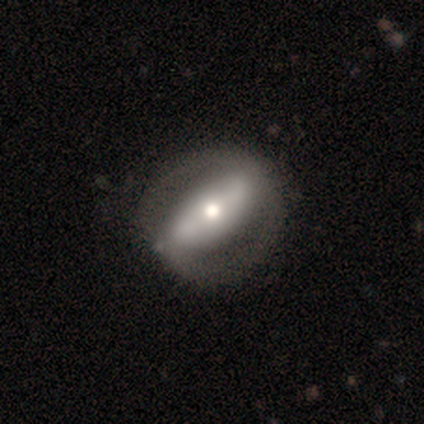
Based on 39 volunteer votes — smooth-or-featured: featured or disk: 62% | smooth: 38% | star or artifact: 0%
  disk-edge-on: no: 96% | yes: 4%
    bar: strong: 78% | no: 17% | weak: 4%
    has-spiral-arms: yes: 52% | no: 48%
      spiral-winding: tight: 50% | medium: 25% | loose: 25%
      spiral-arm-count: 2: 92% | can't tell: 8% | 1: 0% | 3: 0% | 4: 0% | more than 4: 0%
    bulge-size: moderate: 61% | large: 17% | small: 17% | dominant: 4% | none: 0%
  merging: none: 49% | minor disturbance: 13% | major disturbance: 5% | merger: 0%